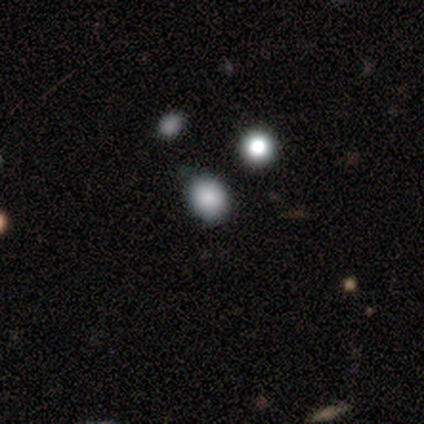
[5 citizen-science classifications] smooth-or-featured: smooth: 80% | star or artifact: 20% | featured or disk: 0%
  how-rounded: in between: 75% | round: 25% | cigar-shaped: 0%
  merging: none: 75% | minor disturbance: 25% | major disturbance: 0% | merger: 0%